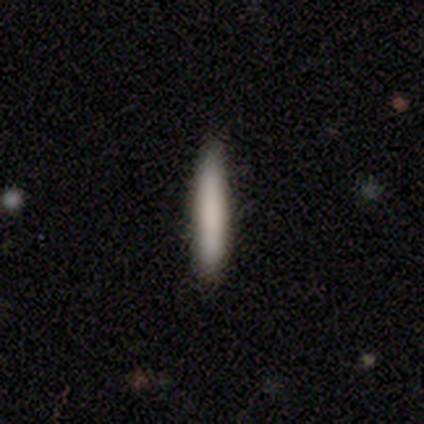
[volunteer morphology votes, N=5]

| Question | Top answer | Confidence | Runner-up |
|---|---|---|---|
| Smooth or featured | smooth | 100% | — |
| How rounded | cigar-shaped | 100% | — |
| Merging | none | 80% | minor disturbance (20%) |